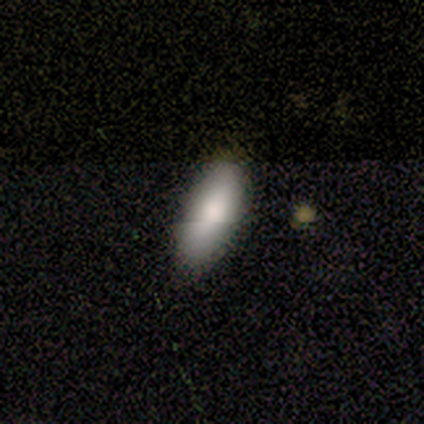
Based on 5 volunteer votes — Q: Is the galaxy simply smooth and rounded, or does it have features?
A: smooth — 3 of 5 (60%).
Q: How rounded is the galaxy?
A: in between — 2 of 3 (67%).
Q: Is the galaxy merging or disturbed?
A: none — 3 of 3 (100%).